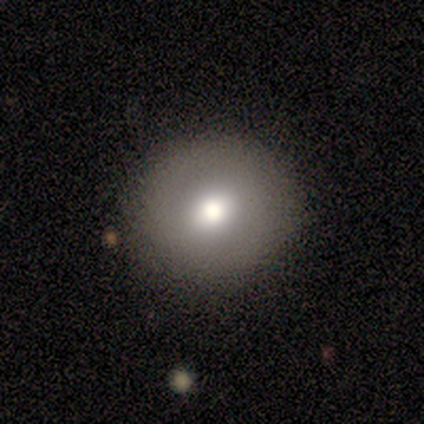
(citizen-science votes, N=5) A smooth galaxy with no disk features (80%) that is round (75%). Merging: none (100%).